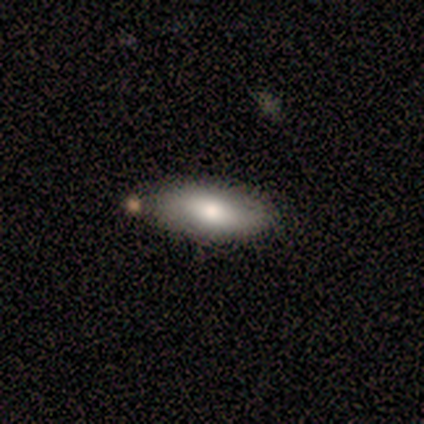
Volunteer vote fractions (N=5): Overall: smooth (100%). How rounded: in between (100%). Merging: none (80%).